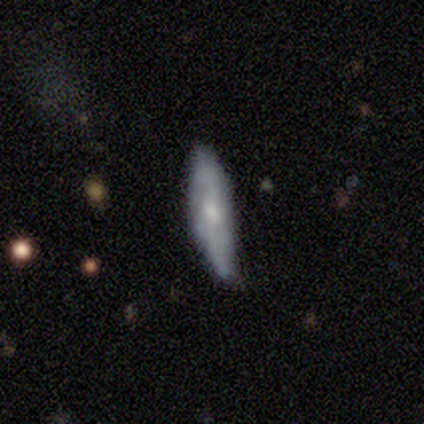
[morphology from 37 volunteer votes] Volunteers were most divided on "merging" (2-way tie): none: 47%, minor disturbance: 47%, merger: 6%, major disturbance: 0%. More confident: edge-on disk — yes (63%); smooth or featured — featured or disk (51%); edge-on bulge — rounded (50%).